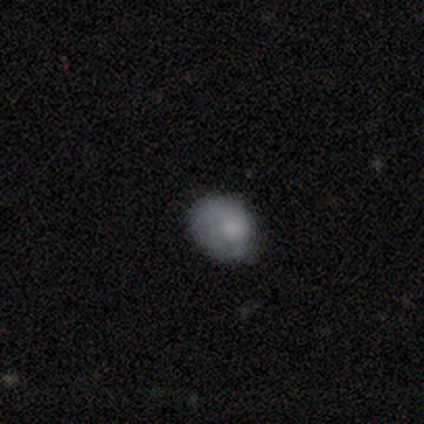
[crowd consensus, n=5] featured or disk 60%, smooth 20%, star or artifact 20%. Down the decision tree: edge-on disk — no (100%); bar — no (100%); spiral arms — no (67%); bulge size — moderate (33%, tied with small and none); merging — minor disturbance (50%).